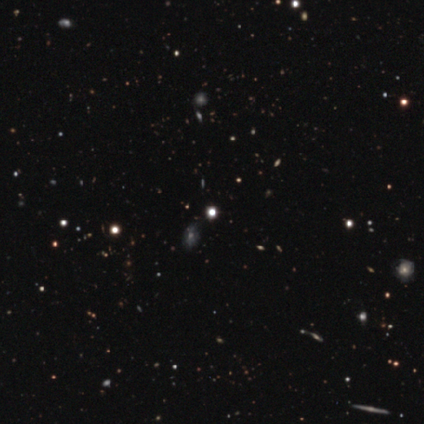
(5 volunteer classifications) Overall: star or artifact (60%; smooth 40%).